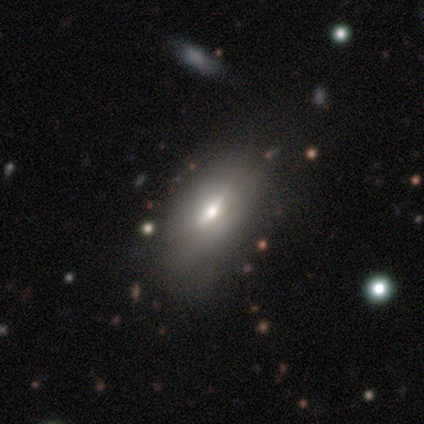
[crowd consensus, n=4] Morphology: type=smooth (75%); roundness=in between (100%); merging=none (75%).